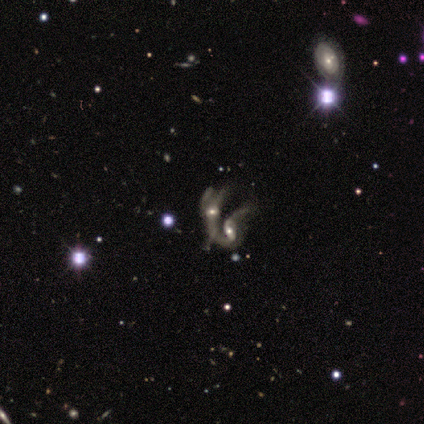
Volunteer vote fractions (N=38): Morphology: type=featured or disk (89%); edge-on=no (97%); bar=no (76%); spiral arms=yes (55%); winding=loose (67%); arm count=2 (56%); bulge=moderate (61%); merging=merger (89%).